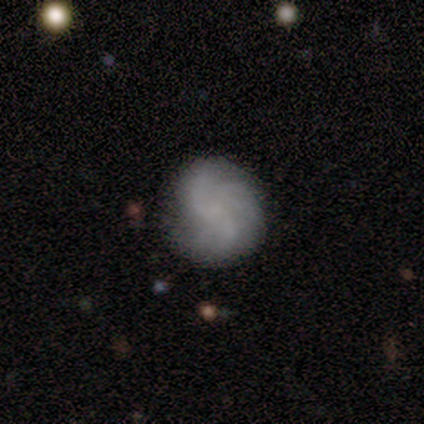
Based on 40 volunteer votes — Smooth or featured? 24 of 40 (60%) said featured or disk. Edge-on disk? 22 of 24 (92%) said no. Bar? 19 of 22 (86%) said no. Spiral arms? 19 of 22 (86%) said yes. Spiral winding? 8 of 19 (42%) said loose. Spiral arm count? 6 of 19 (32%) said can't tell. Bulge size? 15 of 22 (68%) said none. Merging? 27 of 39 (69%) said none.